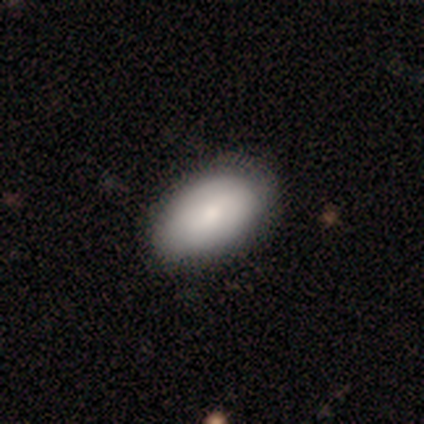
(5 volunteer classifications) This appears to be a smooth galaxy with no disk features (80%) that is in between round and cigar-shaped (100%). Merging: none (60%).